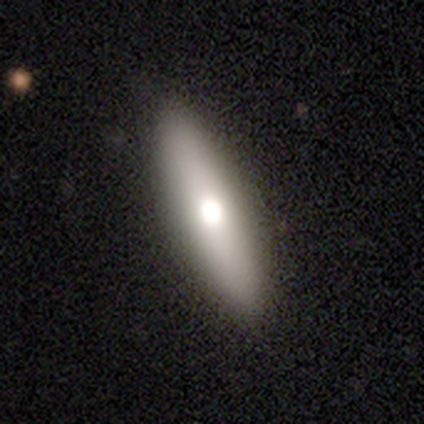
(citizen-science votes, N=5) This appears to be a smooth galaxy with no disk features (80%) that is cigar-shaped (75%). Merging: none (100%).